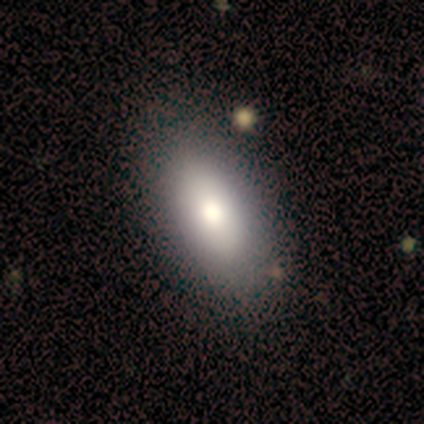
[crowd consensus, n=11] Morphology: type=smooth (73%); roundness=in between (88%); merging=none (90%).